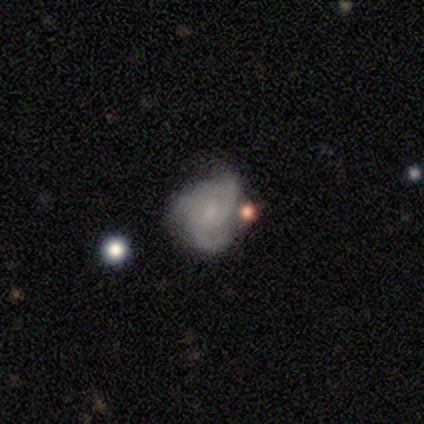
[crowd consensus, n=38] Smooth or featured: featured or disk — 66% (smooth — 26%)
Edge-on disk: no — 100%
Bar: no — 76% (weak — 20%)
Spiral arms: yes — 88% (no — 12%)
Spiral winding: medium — 59% (tight — 41%)
Spiral arm count: 3 — 55% (2 — 27%)
Bulge size: small — 64% (none — 28%)
Merging: none — 54% (minor disturbance — 23%)